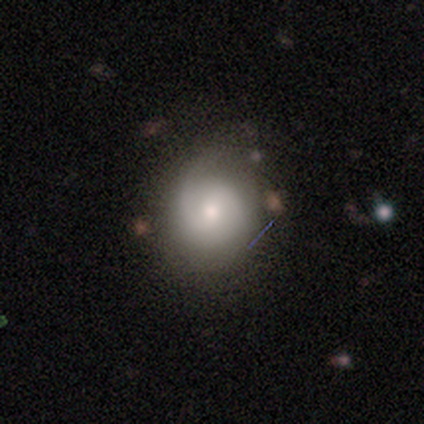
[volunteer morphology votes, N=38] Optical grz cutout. It shows a featured or disk galaxy (50%) with no bar (61%), 2 (67%) tight (47%) spiral arms (83%) and a moderate central bulge (67%). Merging: none (54%).